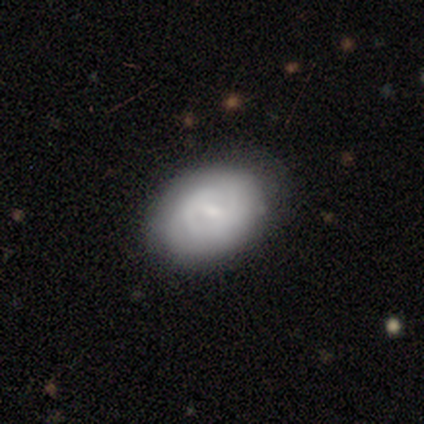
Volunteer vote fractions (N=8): Smooth or featured?
  - featured or disk: 75% *
  - smooth: 25%
  - star or artifact: 0%
Edge-on disk?
  - no: 100% *
  - yes: 0%
Bar?
  - weak: 83% *
  - strong: 17%
  - no: 0%
Spiral arms?
  - yes: 100% *
  - no: 0%
Spiral winding?
  - tight: 67% *
  - medium: 33%
  - loose: 0%
Spiral arm count?
  - can't tell: 50% *
  - 1: 17%
  - 2: 17%
  - 3: 17%
  - 4: 0%
  - more than 4: 0%
Bulge size?
  - small: 67% *
  - moderate: 17%
  - none: 17%
  - dominant: 0%
  - large: 0%
Merging?
  - none: 75% *
  - minor disturbance: 25%
  - major disturbance: 0%
  - merger: 0%